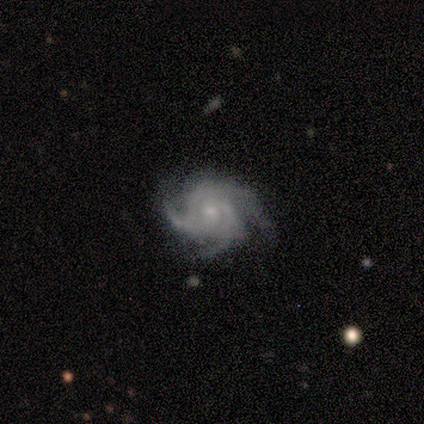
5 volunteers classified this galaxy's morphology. smooth-or-featured: featured or disk: 80% | star or artifact: 20% | smooth: 0%
  disk-edge-on: no: 100% | yes: 0%
    bar: no: 100% | strong: 0% | weak: 0%
    has-spiral-arms: yes: 100% | no: 0%
      spiral-winding: tight: 75% | medium: 25% | loose: 0%
      spiral-arm-count: 3: 50% | 2: 25% | 4: 25% | 1: 0% | more than 4: 0% | can't tell: 0%
    bulge-size: small: 75% | moderate: 25% | dominant: 0% | large: 0% | none: 0%
  merging: none: 100% | minor disturbance: 0% | major disturbance: 0% | merger: 0%